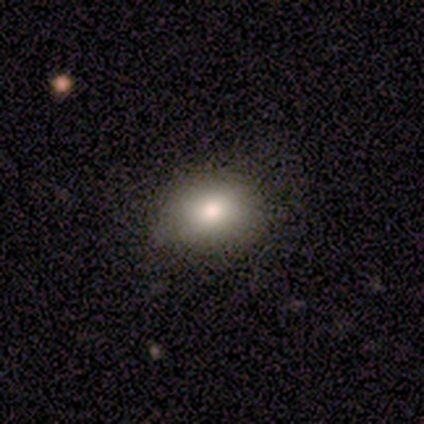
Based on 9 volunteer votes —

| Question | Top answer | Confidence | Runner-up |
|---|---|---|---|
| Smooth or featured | smooth | 89% | featured or disk (11%) |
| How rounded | in between | 88% | round (12%) |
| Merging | none | 56% | minor disturbance (44%) |